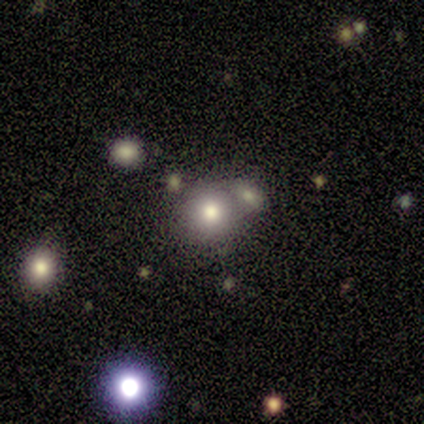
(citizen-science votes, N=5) Q: Smooth or featured?
A: smooth (100%)
Q: How rounded?
A: round (100%)
Q: Merging?
A: merger (80%); runner-up: none (20%)